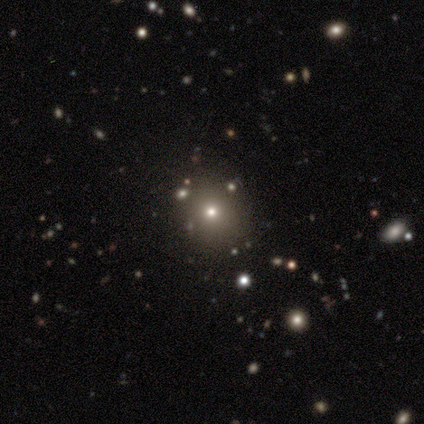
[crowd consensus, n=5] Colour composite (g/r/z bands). It shows a smooth galaxy with no disk features (60%) that is round (100%). Merging: minor disturbance (67%).